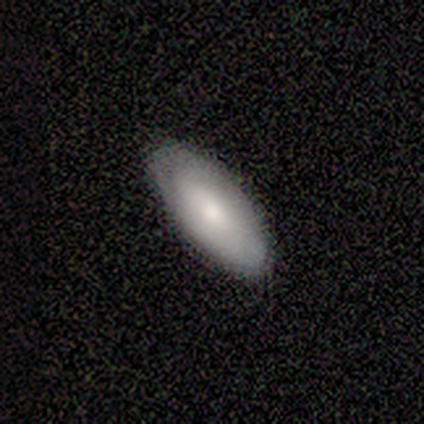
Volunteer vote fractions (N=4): smooth 100%, featured or disk 0%, star or artifact 0%. Down the decision tree: how rounded — in between (100%); merging — none (75%).